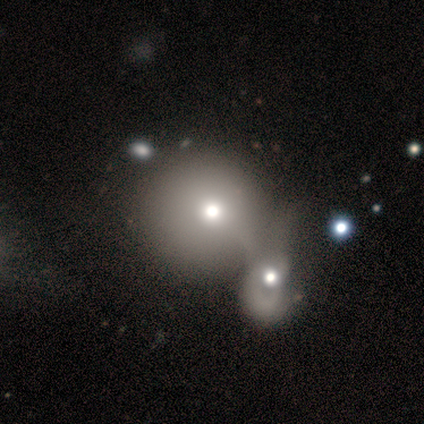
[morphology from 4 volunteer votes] Smooth or featured? 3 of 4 (75%) said smooth. How rounded? 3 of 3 (100%) said round. Merging? 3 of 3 (100%) said merger.